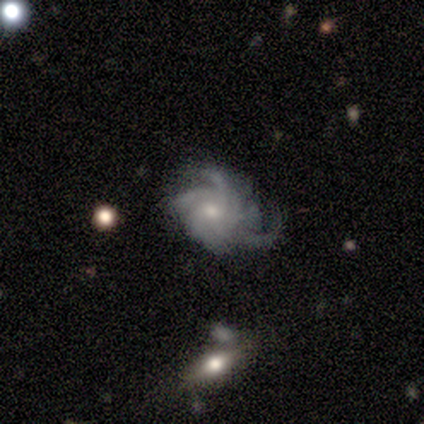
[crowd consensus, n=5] Smooth or featured? 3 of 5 (60%) said star or artifact.